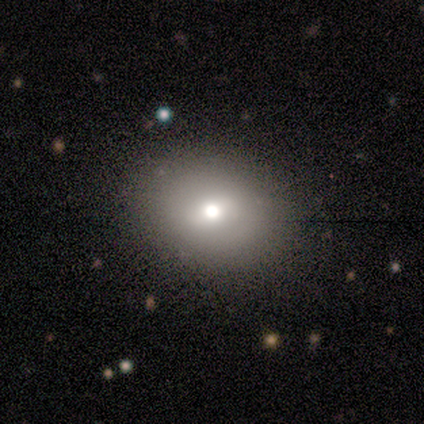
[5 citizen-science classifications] Volunteers were most divided on "how rounded": in between: 75%, round: 25%, cigar-shaped: 0%. More confident: smooth or featured — smooth (80%); merging — none (80%).